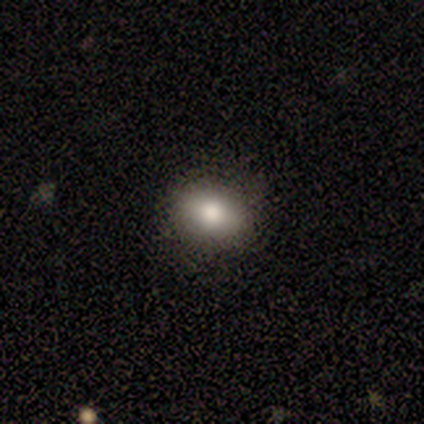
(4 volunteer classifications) Overall: star or artifact (75%).